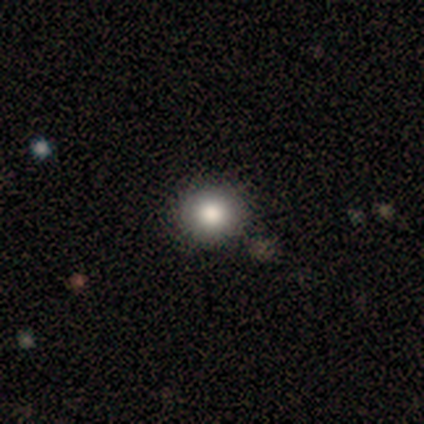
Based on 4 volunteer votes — smooth-or-featured: smooth: 75% | star or artifact: 25% | featured or disk: 0%
  how-rounded: round: 100% | in between: 0% | cigar-shaped: 0%
  merging: none: 100% | minor disturbance: 0% | major disturbance: 0% | merger: 0%